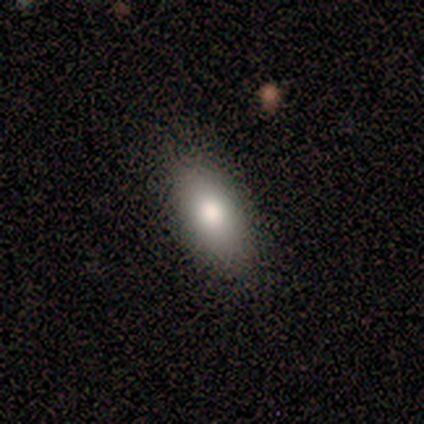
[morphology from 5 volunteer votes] Smooth or featured? smooth (80%)
How rounded? in between (100%)
Merging? none (100%)